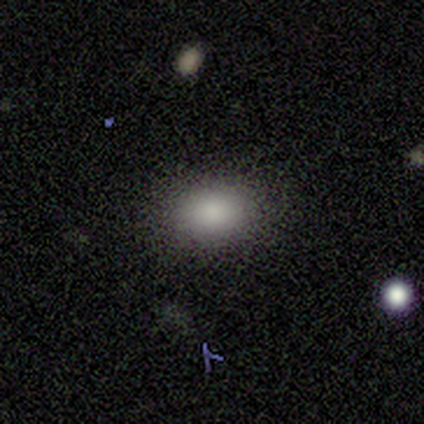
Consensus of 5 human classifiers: smooth_or_featured: smooth (p=1.00)
how_rounded: in between (p=1.00)
merging: none (p=1.00)